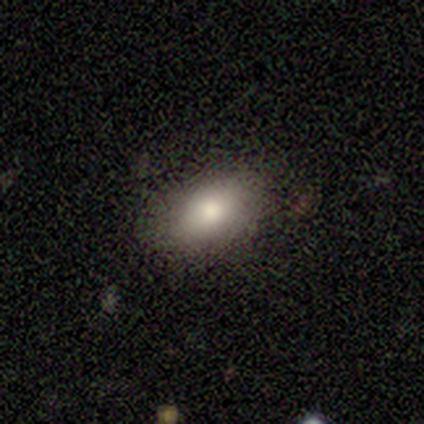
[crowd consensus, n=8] This is likely a smooth galaxy (75%). How rounded: clearly in between (83%). Merging: clearly none (100%).